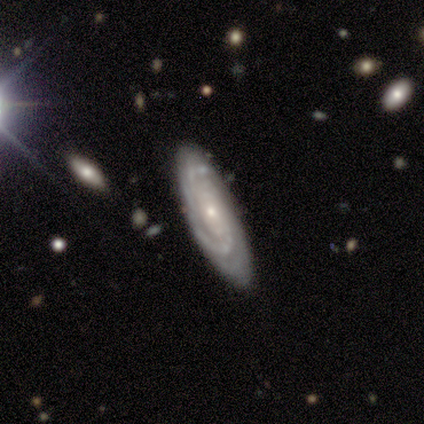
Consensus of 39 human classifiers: This appears to be a featured or disk galaxy (90%) with no bar (70%), tight (73%) spiral arms (100%) and a small central bulge (67%). Merging: none (89%).